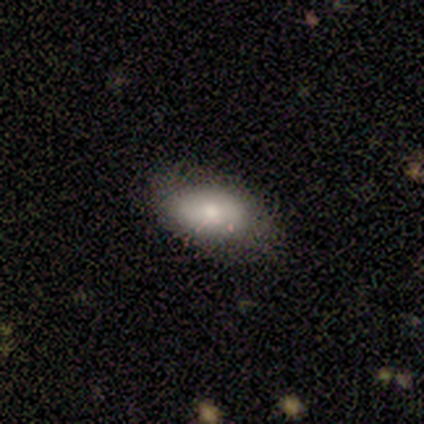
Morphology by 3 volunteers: A smooth galaxy with no disk features (100%) that is in between round and cigar-shaped (100%).

Vote fractions:
- Smooth or featured? smooth: 100% / featured or disk: 0% / star or artifact: 0%
- How rounded? in between: 100% / round: 0% / cigar-shaped: 0%
- Merging? none: 67% / minor disturbance: 33% / major disturbance: 0% / merger: 0%